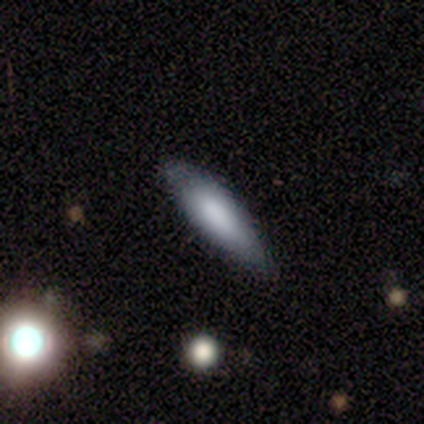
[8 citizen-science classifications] smooth_or_featured: smooth (p=0.88) [alt: featured or disk p=0.12]
how_rounded: cigar-shaped (p=0.71) [alt: in between p=0.29]
merging: none (p=0.62) [alt: minor disturbance p=0.25]